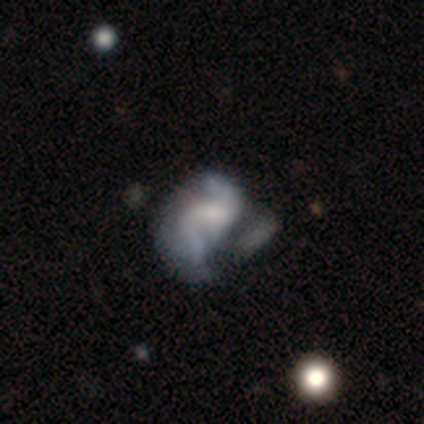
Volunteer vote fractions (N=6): Smooth or featured?
  - featured or disk: 83% *
  - smooth: 17%
  - star or artifact: 0%
Edge-on disk?
  - no: 100% *
  - yes: 0%
Bar?
  - weak: 40% * (tied)
  - no: 40% * (tied)
  - strong: 20%
Spiral arms?
  - yes: 80% *
  - no: 20%
Spiral winding?
  - medium: 50% * (tied)
  - loose: 50% * (tied)
  - tight: 0%
Spiral arm count?
  - 2: 75% *
  - can't tell: 25%
  - 1: 0%
  - 3: 0%
  - 4: 0%
  - more than 4: 0%
Bulge size?
  - moderate: 60% *
  - small: 20%
  - none: 20%
  - dominant: 0%
  - large: 0%
Merging?
  - minor disturbance: 67% *
  - major disturbance: 33%
  - none: 0%
  - merger: 0%